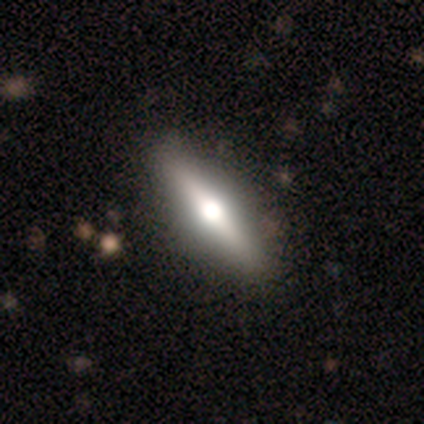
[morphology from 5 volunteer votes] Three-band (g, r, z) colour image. It shows a featured or disk galaxy (60%) viewed edge-on (100%) with a rounded central bulge (100%). Merging: none (100%).